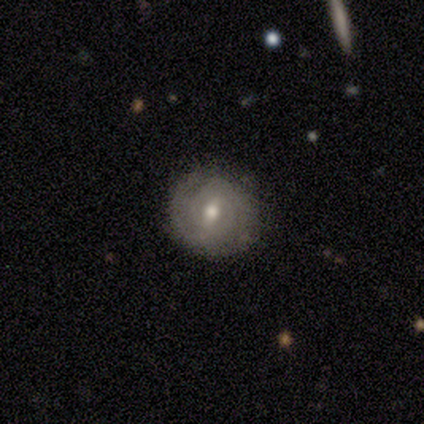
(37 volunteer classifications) A featured or disk galaxy (54%) with a weak bar (50%), 2 (71%) tight (82%) spiral arms (85%) and a moderate central bulge (60%).

Vote fractions:
- Smooth or featured? featured or disk: 54% / smooth: 38% / star or artifact: 8%
- Edge-on disk? no: 100% / yes: 0%
- Bar? weak: 50% / strong: 30% / no: 20%
- Spiral arms? yes: 85% / no: 15%
- Spiral winding? tight: 82% / medium: 18% / loose: 0%
- Spiral arm count? 2: 71% / can't tell: 24% / 3: 6% / 1: 0% / 4: 0% / more than 4: 0%
- Bulge size? moderate: 60% / small: 30% / large: 10% / dominant: 0% / none: 0%
- Merging? none: 94% / minor disturbance: 6% / major disturbance: 0% / merger: 0%